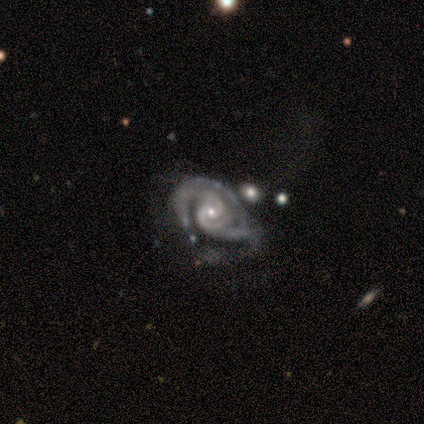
Overall: featured or disk (100%). Edge-on disk: no (100%). Bar: weak (50%, tied with no). Spiral arms: yes (100%). Spiral arm count: 3 (75%). Spiral winding: tight (75%). Bulge size: small (75%). Merging: none (50%; major disturbance 25%).